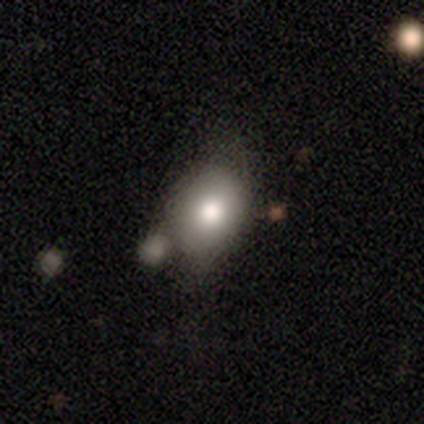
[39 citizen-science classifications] Smooth or featured?
  - smooth: 79% *
  - featured or disk: 10%
  - star or artifact: 10%
How rounded?
  - in between: 71% *
  - round: 26%
  - cigar-shaped: 3%
Merging?
  - none: 43% *
  - minor disturbance: 29%
  - merger: 23%
  - major disturbance: 6%